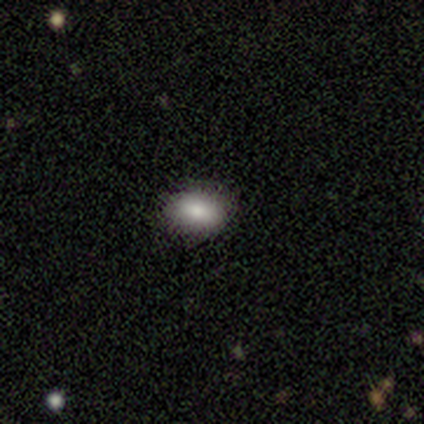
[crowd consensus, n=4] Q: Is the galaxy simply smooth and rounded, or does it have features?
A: smooth — 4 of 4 (100%).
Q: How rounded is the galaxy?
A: in between — 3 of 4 (75%).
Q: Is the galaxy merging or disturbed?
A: none — 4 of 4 (100%).